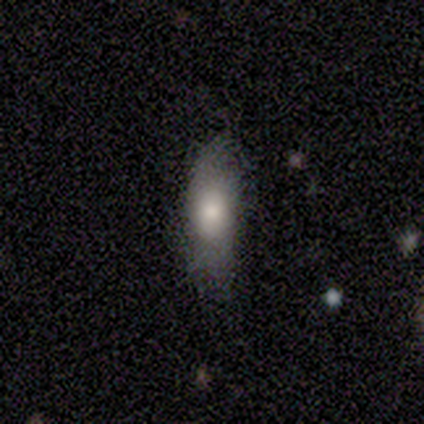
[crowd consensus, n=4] A smooth galaxy with no disk features (50%, tied with featured or disk) that is in between round and cigar-shaped (50%, tied with cigar-shaped).

Vote fractions:
- Smooth or featured? smooth: 50% (tied) / featured or disk: 50% (tied) / star or artifact: 0%
- How rounded? in between: 50% (tied) / cigar-shaped: 50% (tied) / round: 0%
- Merging? none: 75% / minor disturbance: 25% / major disturbance: 0% / merger: 0%